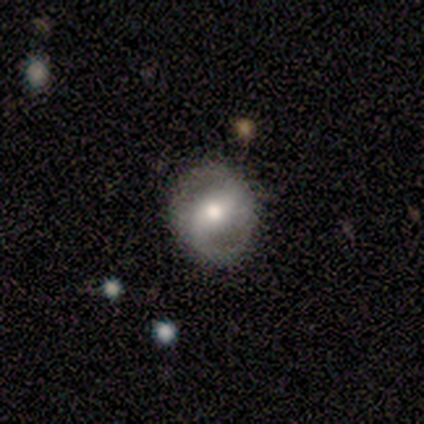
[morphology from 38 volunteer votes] This is likely a featured or disk galaxy (74%). It is clearly not viewed edge-on (100%). Bar: marginally weak (36%, tied with no). Spiral arm pattern: likely yes (68%). Spiral arm count: clearly 2 (89%). Spiral winding: likely loose (63%). Central bulge: likely moderate (68%). Merging: likely none (74%).